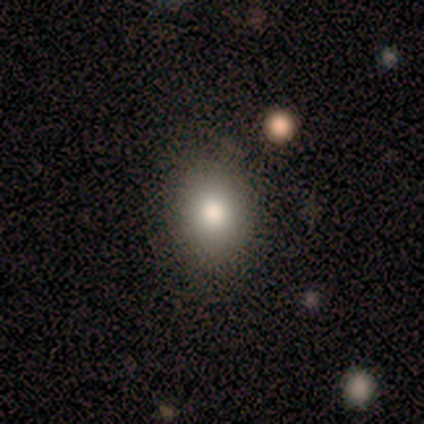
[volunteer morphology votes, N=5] smooth-or-featured: smooth: 60% | featured or disk: 20% | star or artifact: 20%
  how-rounded: in between: 67% | round: 33% | cigar-shaped: 0%
  merging: none: 75% | minor disturbance: 25% | major disturbance: 0% | merger: 0%